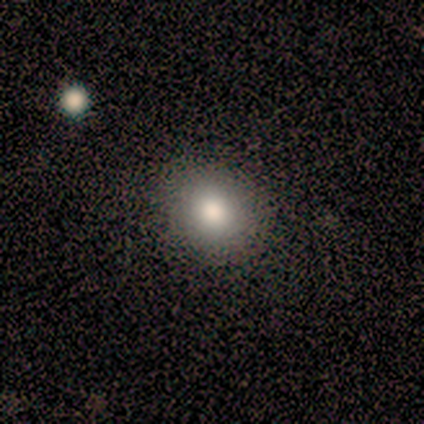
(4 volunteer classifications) Overall: smooth (75%). How rounded: round (100%). Merging: none (100%).